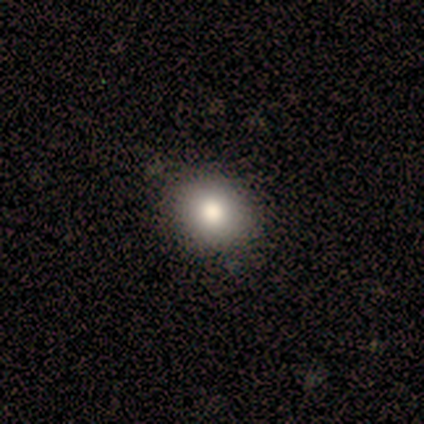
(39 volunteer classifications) This appears to be a smooth galaxy with no disk features (69%) that is round (70%). Merging: none (85%).